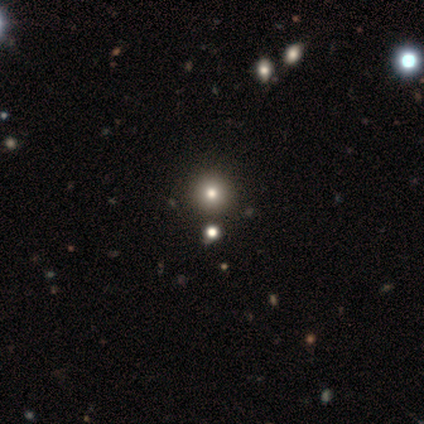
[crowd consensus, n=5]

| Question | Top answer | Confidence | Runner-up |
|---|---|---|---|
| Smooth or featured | star or artifact | 60% | smooth (40%) |